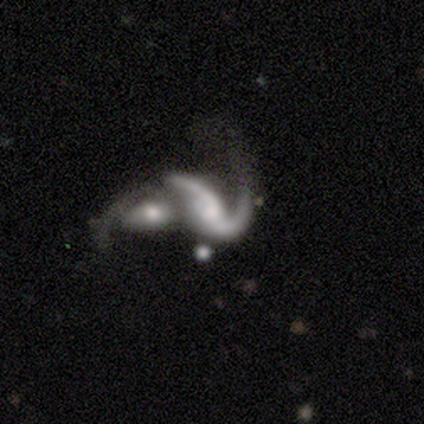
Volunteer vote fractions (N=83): Smooth or featured: featured or disk — 86% (smooth — 11%)
Edge-on disk: no — 96% (yes — 4%)
Bar: no — 46% (weak — 40%)
Spiral arms: yes — 87% (no — 13%)
Spiral winding: loose — 69% (medium — 27%)
Spiral arm count: 2 — 75% (1 — 14%)
Bulge size: moderate — 32% (small — 31%)
Merging: merger — 71% (major disturbance — 14%)